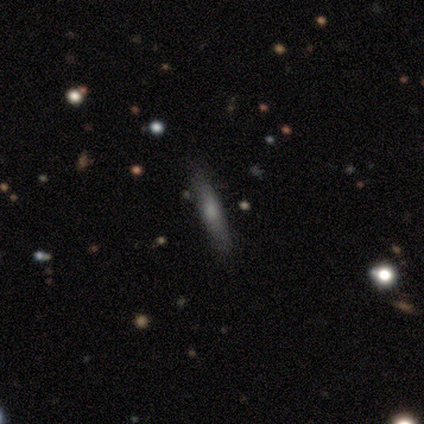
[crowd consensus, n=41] Smooth or featured: smooth — 66% (featured or disk — 27%)
How rounded: cigar-shaped — 89% (in between — 11%)
Merging: none — 82% (minor disturbance — 13%)